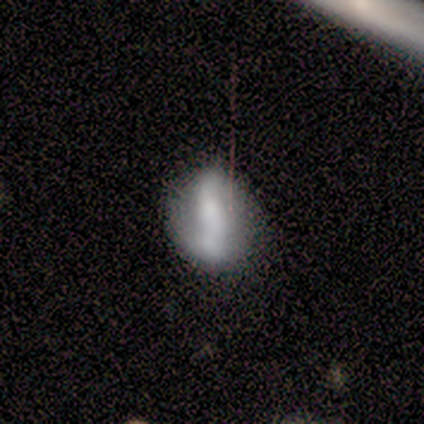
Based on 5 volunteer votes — Volunteers were most divided on "smooth or featured": smooth: 60%, featured or disk: 20%, star or artifact: 20%. More confident: how rounded — round (100%); merging — minor disturbance (75%).